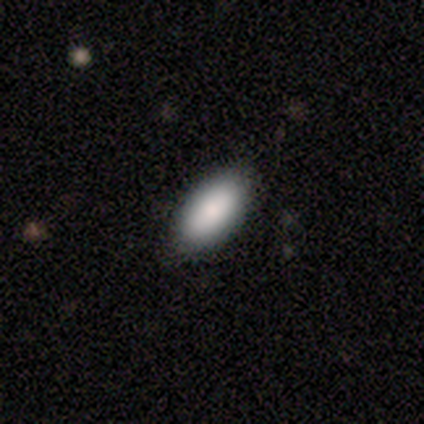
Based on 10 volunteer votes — Smooth or featured?
  - smooth: 100% *
  - featured or disk: 0%
  - star or artifact: 0%
How rounded?
  - in between: 100% *
  - round: 0%
  - cigar-shaped: 0%
Merging?
  - none: 90% *
  - minor disturbance: 10%
  - major disturbance: 0%
  - merger: 0%